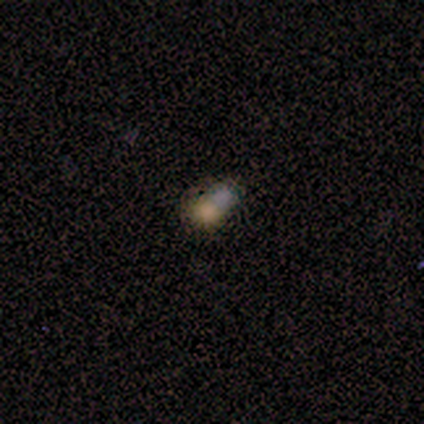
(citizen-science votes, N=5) smooth 100%, featured or disk 0%, star or artifact 0%. Down the decision tree: how rounded — round (40%, tied with in between); merging — merger (80%).